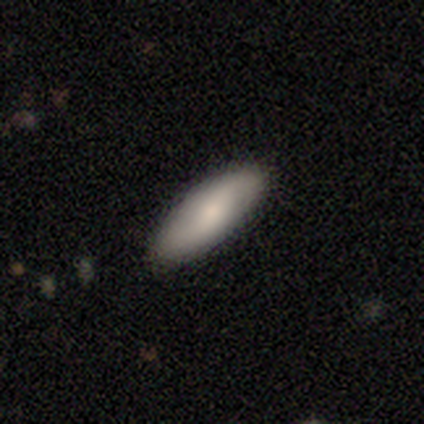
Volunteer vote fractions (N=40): Smooth or featured? smooth (68%)
How rounded? in between (81%)
Merging? none (94%)